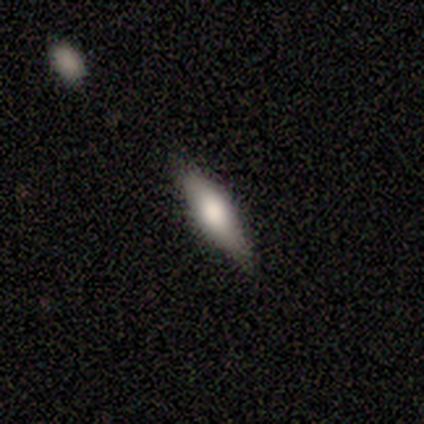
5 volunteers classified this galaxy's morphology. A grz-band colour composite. It shows a smooth galaxy with no disk features (100%) that is cigar-shaped (60%). Merging: none (100%).